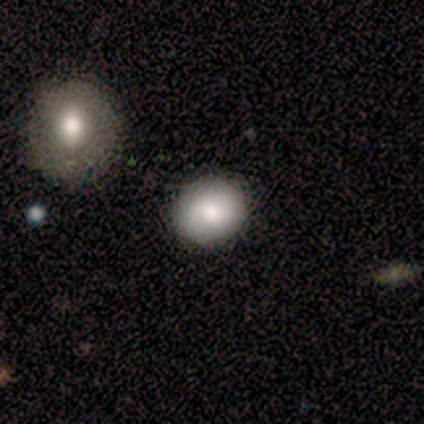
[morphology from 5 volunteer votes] Smooth or featured?
  - smooth: 80% *
  - featured or disk: 20%
  - star or artifact: 0%
How rounded?
  - round: 50% * (tied)
  - in between: 50% * (tied)
  - cigar-shaped: 0%
Merging?
  - none: 80% *
  - minor disturbance: 20%
  - major disturbance: 0%
  - merger: 0%